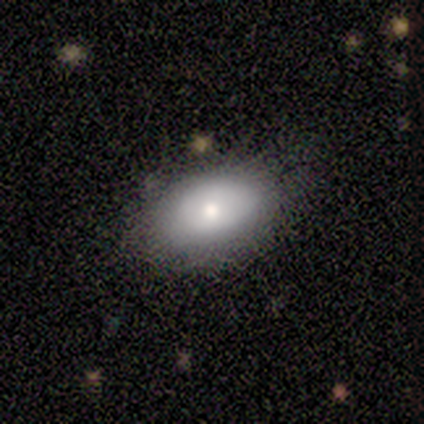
Smooth or featured?
  - smooth: 50% * (tied)
  - featured or disk: 50% * (tied)
  - star or artifact: 0%
How rounded?
  - in between: 100% *
  - round: 0%
  - cigar-shaped: 0%
Merging?
  - minor disturbance: 50% *
  - none: 25%
  - major disturbance: 25%
  - merger: 0%